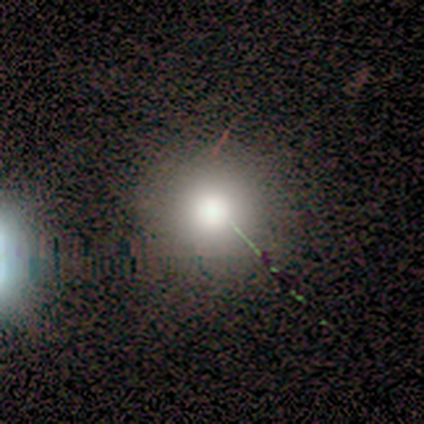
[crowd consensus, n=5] smooth_or_featured: smooth (p=0.80) [alt: star or artifact p=0.20]
how_rounded: round (p=1.00)
merging: none (p=0.50) [tied with: minor disturbance p=0.50]